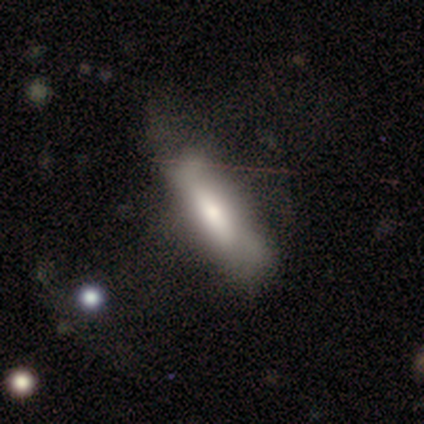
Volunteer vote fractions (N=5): This appears to be a smooth galaxy with no disk features (80%) that is cigar-shaped (75%). Merging: none (60%).